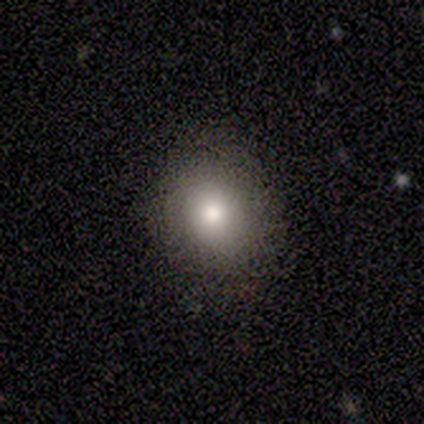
This appears to be a smooth galaxy with no disk features (83%) that is round (60%). Merging: none (67%).